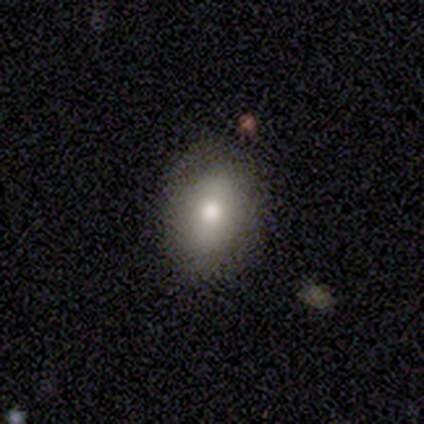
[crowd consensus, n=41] smooth-or-featured: smooth: 76% | star or artifact: 15% | featured or disk: 10%
  how-rounded: in between: 74% | round: 23% | cigar-shaped: 3%
  merging: none: 83% | minor disturbance: 14% | major disturbance: 3% | merger: 0%